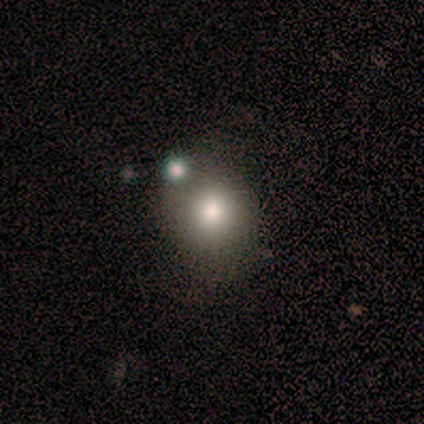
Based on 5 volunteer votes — smooth 80%, featured or disk 20%, star or artifact 0%. Down the decision tree: how rounded — round (100%); merging — none (80%).